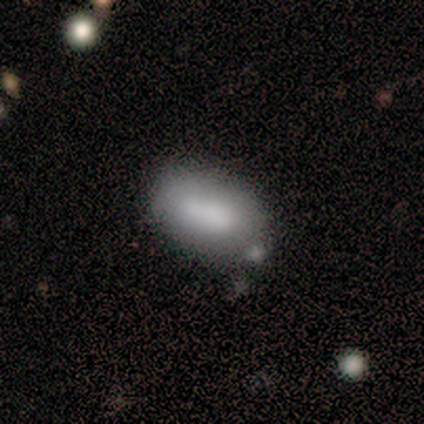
Overall: smooth (75%). How rounded: in between (100%). Merging: minor disturbance (43%; none 29%).